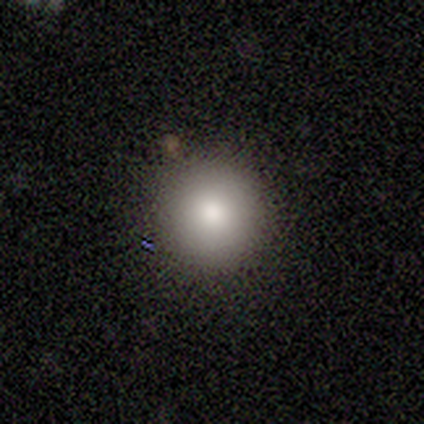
Smooth or featured? smooth (75%)
How rounded? round (100%)
Merging? none (100%)